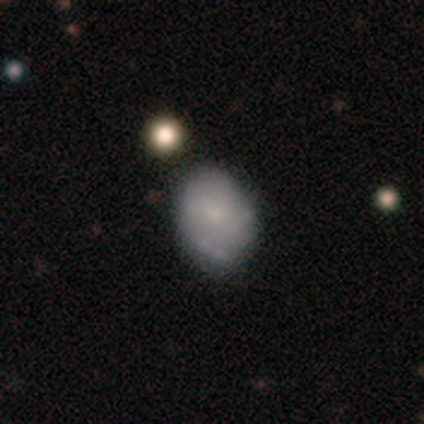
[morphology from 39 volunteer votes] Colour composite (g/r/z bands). It shows a featured or disk galaxy (51%) with no bar (68%), tight (50%) spiral arms (84%) and a small central bulge (68%). Merging: none (69%).